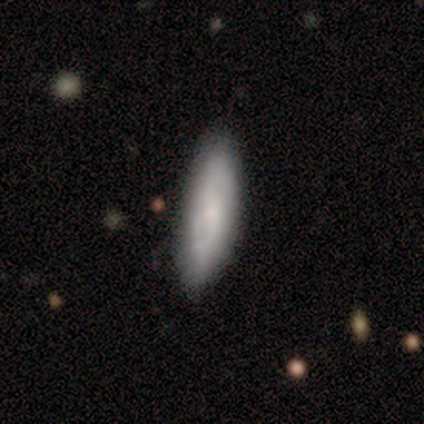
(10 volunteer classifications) Smooth or featured? 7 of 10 (70%) said smooth. How rounded? 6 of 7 (86%) said cigar-shaped. Merging? 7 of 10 (70%) said none.